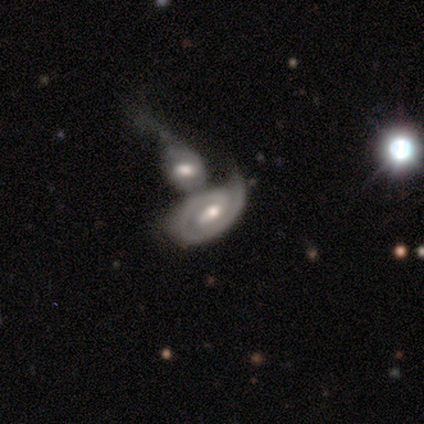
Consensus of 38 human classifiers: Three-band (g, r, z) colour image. It shows a featured or disk galaxy (66%) with a weak bar (52%), 1 (45%, tied with 2) tight (85%) spiral arms (87%) and a moderate central bulge (57%). Merging: merger (76%).